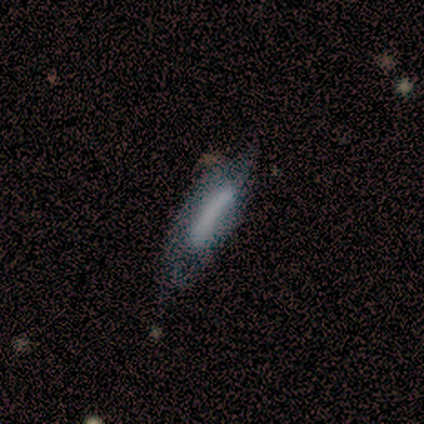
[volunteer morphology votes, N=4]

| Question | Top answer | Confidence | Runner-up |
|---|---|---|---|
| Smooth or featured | featured or disk | 50% | smooth (25%) |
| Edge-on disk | no | 100% | — |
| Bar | no | 100% | — |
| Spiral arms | yes | 50% | tied: no (50%) |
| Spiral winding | loose | 100% | — |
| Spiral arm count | can't tell | 100% | — |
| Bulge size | dominant | 50% | tied: large (50%) |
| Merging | none | 33% | tied: minor disturbance (33%), major disturbance (33%) |